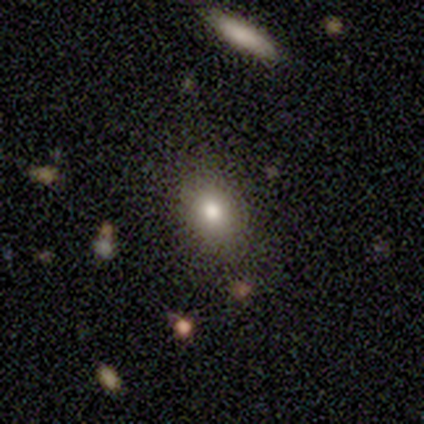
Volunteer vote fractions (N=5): smooth_or_featured: smooth (p=0.80) [alt: star or artifact p=0.20]
how_rounded: in between (p=0.75) [alt: round p=0.25]
merging: none (p=1.00)